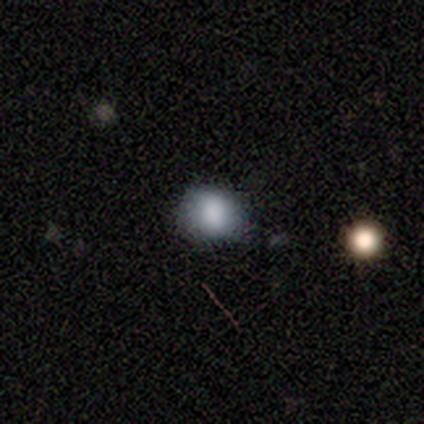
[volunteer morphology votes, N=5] smooth 80%, featured or disk 20%, star or artifact 0%. Down the decision tree: how rounded — round (75%); merging — none (60%).